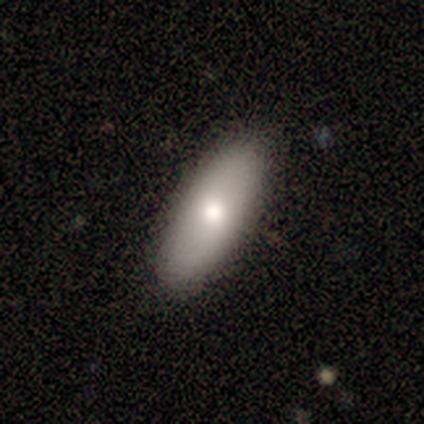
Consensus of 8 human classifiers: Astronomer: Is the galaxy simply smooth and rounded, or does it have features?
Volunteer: smooth — 100%.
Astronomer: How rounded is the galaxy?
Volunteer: in between — 88%.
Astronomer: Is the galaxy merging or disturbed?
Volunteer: none — 88%.